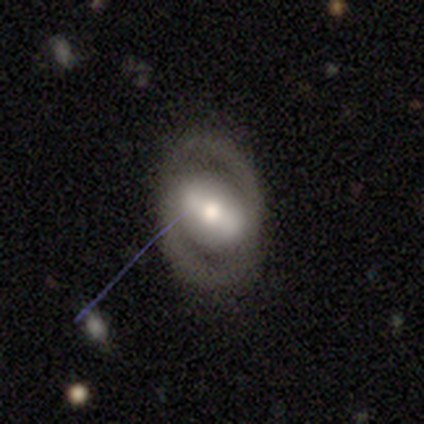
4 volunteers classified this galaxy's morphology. smooth_or_featured: featured or disk (p=0.75) [alt: star or artifact p=0.25]
disk_edge_on: no (p=0.67) [alt: yes p=0.33]
bar: strong (p=0.50) [tied with: weak p=0.50]
has_spiral_arms: yes (p=1.00)
spiral_winding: tight (p=1.00)
spiral_arm_count: 2 (p=0.50) [tied with: 3 p=0.50]
bulge_size: moderate (p=1.00)
merging: none (p=1.00)